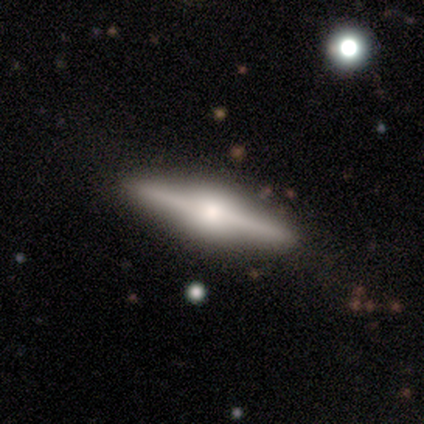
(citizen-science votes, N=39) A featured or disk galaxy (82%) viewed edge-on (97%) with a rounded central bulge (87%).

Vote fractions:
- Smooth or featured? featured or disk: 82% / smooth: 15% / star or artifact: 3%
- Edge-on disk? yes: 97% / no: 3%
- Edge-on bulge? rounded: 87% / boxy: 13% / none: 0%
- Merging? none: 95% / minor disturbance: 5% / major disturbance: 0% / merger: 0%